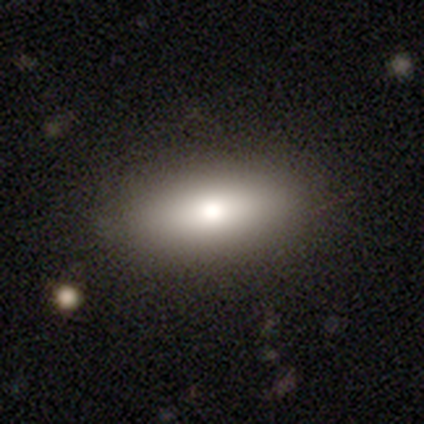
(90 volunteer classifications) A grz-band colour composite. It shows a smooth galaxy with no disk features (73%) that is in between round and cigar-shaped (74%). Merging: none (84%).